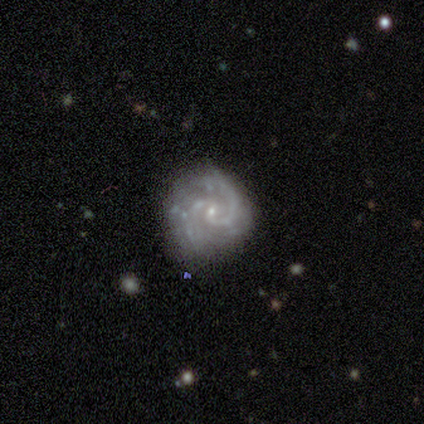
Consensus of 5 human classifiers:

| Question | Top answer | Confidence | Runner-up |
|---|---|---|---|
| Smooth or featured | featured or disk | 80% | star or artifact (20%) |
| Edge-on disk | no | 100% | — |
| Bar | no | 100% | — |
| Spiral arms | yes | 100% | — |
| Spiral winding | tight | 50% | tied: medium (50%) |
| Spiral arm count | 2 | 50% | tied: can't tell (50%) |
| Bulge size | small | 100% | — |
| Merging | minor disturbance | 75% | none (25%) |